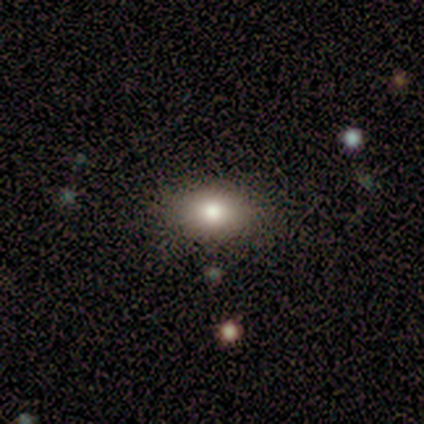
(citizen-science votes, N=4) smooth_or_featured: smooth (p=1.00)
how_rounded: round (p=1.00)
merging: none (p=0.50) [alt: minor disturbance p=0.25]